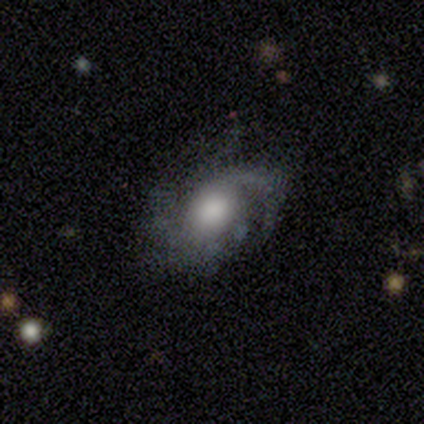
Smooth or featured? 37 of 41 (90%) said featured or disk. Edge-on disk? 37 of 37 (100%) said no. Bar? 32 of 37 (86%) said no. Spiral arms? 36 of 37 (97%) said yes. Spiral winding? 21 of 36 (58%) said medium. Spiral arm count? 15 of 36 (42%) said 2. Bulge size? 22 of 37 (59%) said large. Merging? 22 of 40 (55%) said none.